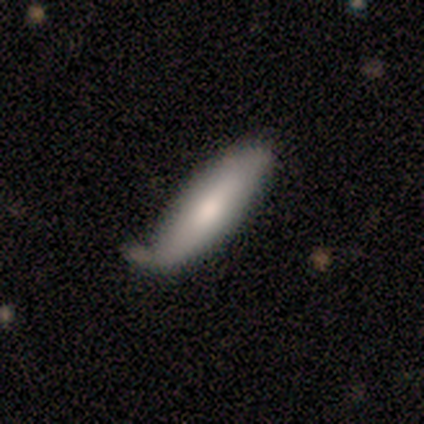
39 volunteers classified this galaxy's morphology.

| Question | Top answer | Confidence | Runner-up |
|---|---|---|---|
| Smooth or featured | smooth | 67% | featured or disk (33%) |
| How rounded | in between | 62% | cigar-shaped (38%) |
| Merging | none | 46% | minor disturbance (33%) |